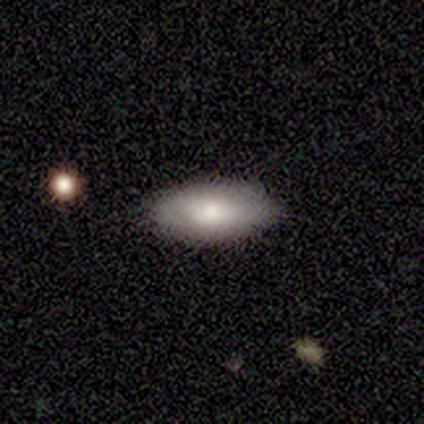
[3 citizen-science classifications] Overall: smooth (67%; star or artifact 33%). How rounded: in between (100%). Merging: none (50%, tied with minor disturbance).